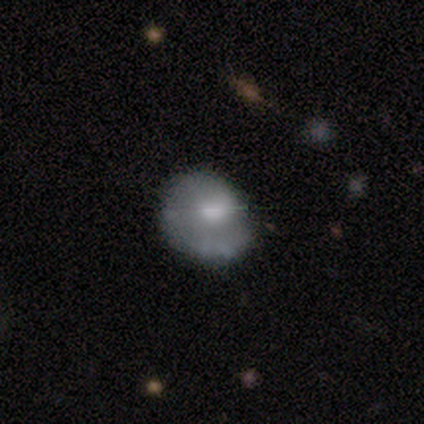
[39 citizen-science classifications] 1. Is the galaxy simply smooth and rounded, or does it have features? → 62% featured or disk, 36% smooth, 3% star or artifact.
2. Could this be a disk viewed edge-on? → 100% no, 0% yes.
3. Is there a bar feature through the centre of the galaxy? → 92% no, 8% weak, 0% strong.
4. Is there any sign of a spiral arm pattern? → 50% yes (tied), 50% no (tied).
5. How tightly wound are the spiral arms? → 67% tight, 25% medium, 8% loose.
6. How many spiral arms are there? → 83% 1, 8% 2, 8% can't tell, 0% 3, 0% 4, 0% more than 4.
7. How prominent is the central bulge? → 67% moderate, 17% small, 12% none, 4% dominant, 0% large.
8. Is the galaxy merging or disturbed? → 55% none, 32% minor disturbance, 13% major disturbance, 0% merger.